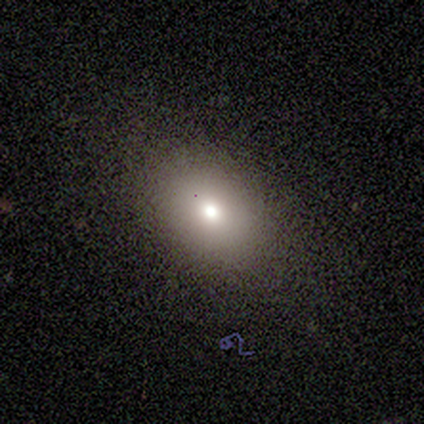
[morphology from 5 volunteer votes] Smooth or featured? smooth (80%)
How rounded? round (50%, tied with in between)
Merging? none (100%)